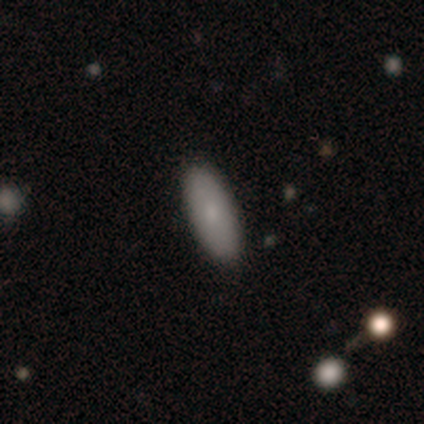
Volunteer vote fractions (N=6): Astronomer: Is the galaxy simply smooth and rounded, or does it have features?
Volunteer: smooth — 67%.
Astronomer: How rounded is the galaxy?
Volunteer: in between — 100%.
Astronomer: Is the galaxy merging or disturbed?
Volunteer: none — 83%.